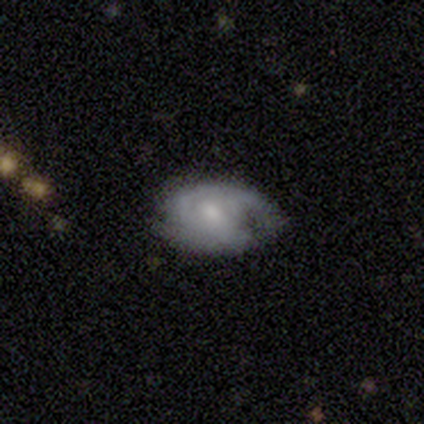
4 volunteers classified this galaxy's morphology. Smooth or featured: featured or disk — 100%
Edge-on disk: no — 100%
Bar: no — 75% (weak — 25%)
Spiral arms: yes — 75% (no — 25%)
Spiral winding: medium — 67% (tight — 33%)
Spiral arm count: can't tell — 67% (2 — 33%)
Bulge size: moderate — 50% (small — 25%)
Merging: none — 50% (minor disturbance — 25%)